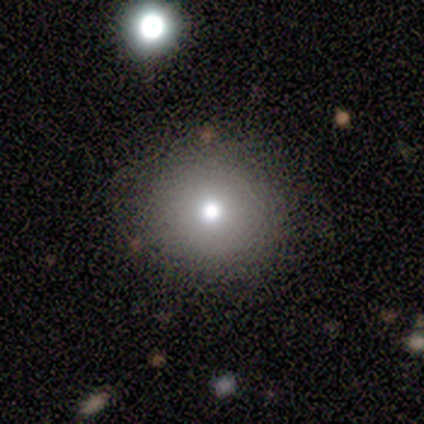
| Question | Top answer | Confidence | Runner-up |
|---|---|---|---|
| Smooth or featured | smooth | 82% | star or artifact (11%) |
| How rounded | round | 90% | in between (10%) |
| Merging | none | 68% | merger (6%) |